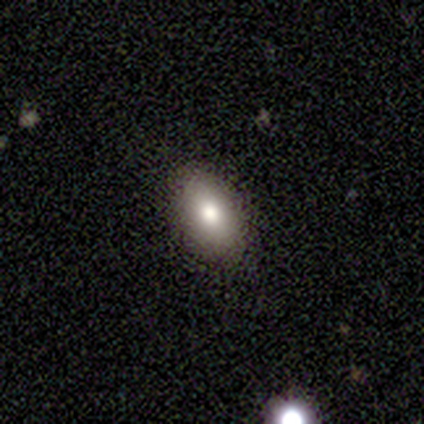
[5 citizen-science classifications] smooth 100%, featured or disk 0%, star or artifact 0%. Down the decision tree: how rounded — in between (100%); merging — none (60%).